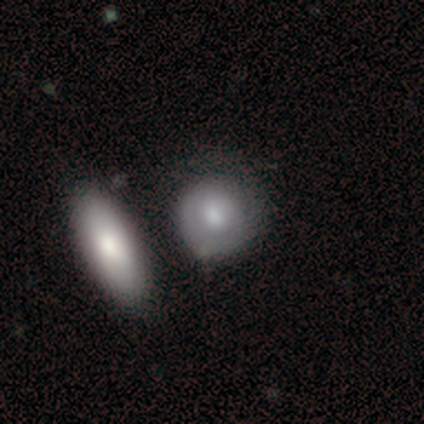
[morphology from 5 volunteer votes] featured or disk 60%, smooth 20%, star or artifact 20%. Down the decision tree: edge-on disk — no (100%); bar — no (100%); spiral arms — yes (67%); spiral arm count — 1 (50%, tied with can't tell); spiral winding — tight (50%, tied with medium); bulge size — large (67%); merging — none (75%).